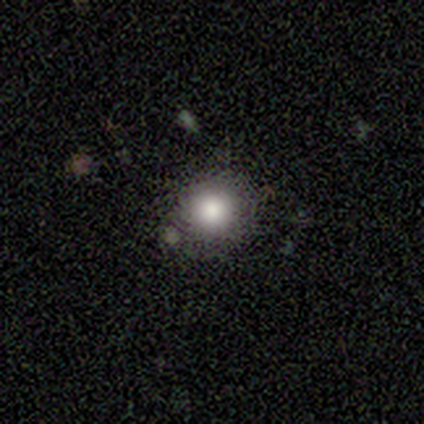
Smooth or featured: smooth — 80% (star or artifact — 20%)
How rounded: round — 100%
Merging: none — 100%